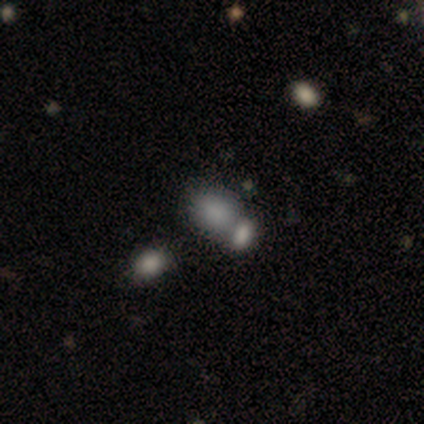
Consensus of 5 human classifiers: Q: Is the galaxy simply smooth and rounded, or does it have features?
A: smooth — 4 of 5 (80%).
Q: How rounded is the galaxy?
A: in between — 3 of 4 (75%).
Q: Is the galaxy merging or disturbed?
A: none — 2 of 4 (50%, tied with merger).